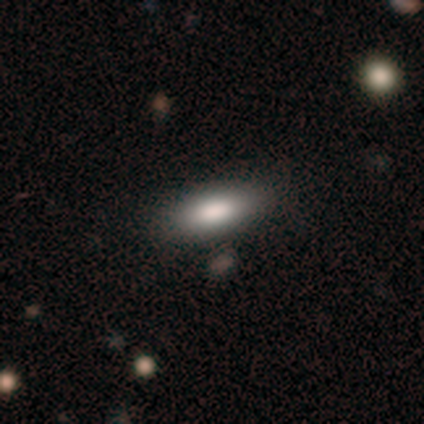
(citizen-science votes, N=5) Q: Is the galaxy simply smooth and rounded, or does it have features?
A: smooth — 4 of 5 (80%).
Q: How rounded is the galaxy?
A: in between — 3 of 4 (75%).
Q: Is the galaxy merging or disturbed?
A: none — 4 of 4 (100%).